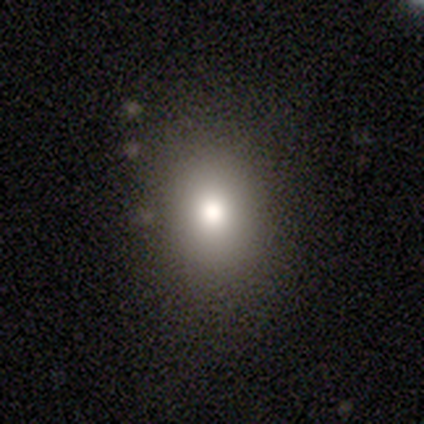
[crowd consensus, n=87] Smooth or featured? 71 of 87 (82%) said smooth. How rounded? 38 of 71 (54%) said in between. Merging? 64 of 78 (82%) said none.